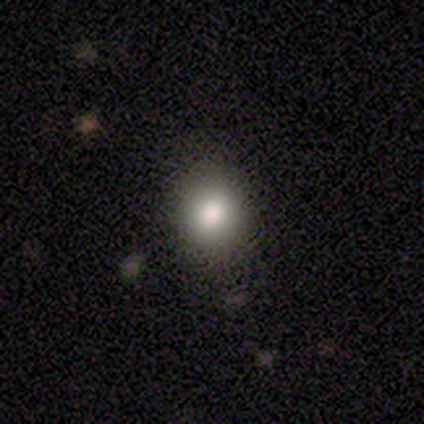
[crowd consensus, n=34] Volunteers were most divided on "how rounded": round: 64%, in between: 36%, cigar-shaped: 0%. More confident: merging — none (75%); smooth or featured — smooth (65%).